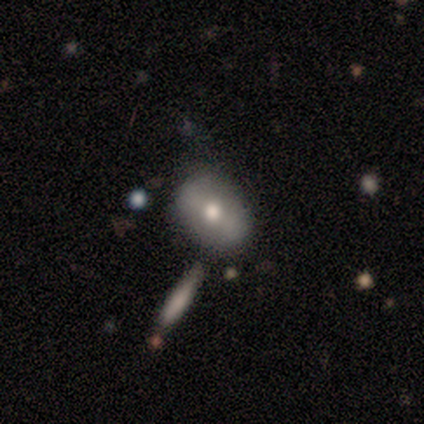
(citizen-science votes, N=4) Morphology: type=smooth (100%); roundness=in between (75%); merging=none (50%).